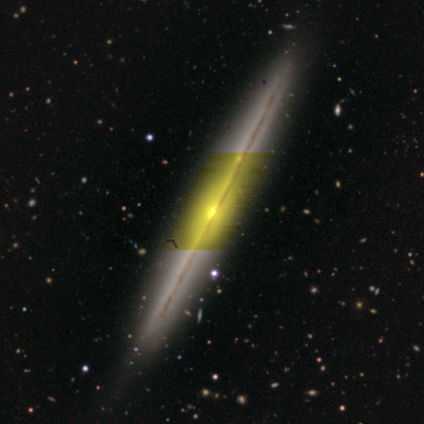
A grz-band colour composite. It shows a featured or disk galaxy (100%) viewed edge-on (100%) with no central bulge (60%). Merging: none (80%).